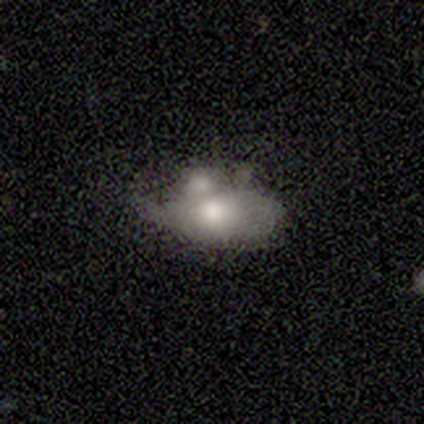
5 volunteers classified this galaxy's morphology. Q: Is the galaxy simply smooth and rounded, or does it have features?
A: smooth — 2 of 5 (40%, tied with featured or disk).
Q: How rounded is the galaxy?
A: in between — 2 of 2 (100%).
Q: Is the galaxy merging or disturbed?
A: merger — 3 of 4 (75%).